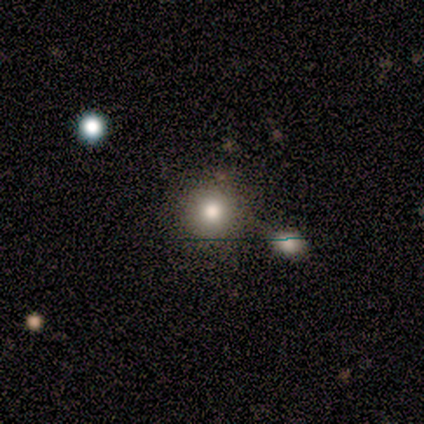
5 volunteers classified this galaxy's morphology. Smooth or featured? 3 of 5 (60%) said featured or disk. Edge-on disk? 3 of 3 (100%) said no. Bar? 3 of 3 (100%) said no. Spiral arms? 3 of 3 (100%) said no. Bulge size? 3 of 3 (100%) said large. Merging? 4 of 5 (80%) said none.